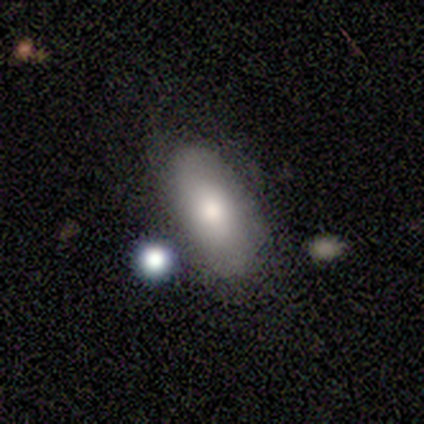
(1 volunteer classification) This is clearly a smooth galaxy (100%). How rounded: clearly in between (100%). Merging: clearly major disturbance (100%).